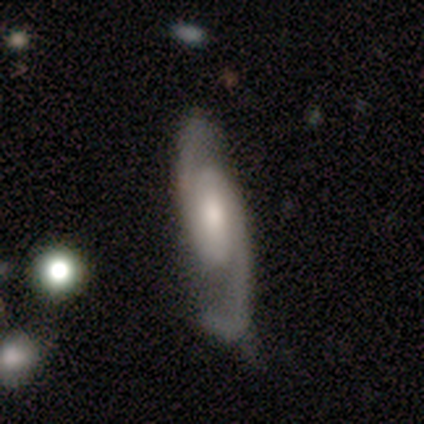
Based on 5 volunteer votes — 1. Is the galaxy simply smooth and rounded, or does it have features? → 80% featured or disk, 20% smooth, 0% star or artifact.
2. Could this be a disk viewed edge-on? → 100% no, 0% yes.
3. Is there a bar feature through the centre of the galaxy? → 50% weak, 25% strong, 25% no.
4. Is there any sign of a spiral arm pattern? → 100% yes, 0% no.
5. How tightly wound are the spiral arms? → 50% medium, 25% tight, 25% loose.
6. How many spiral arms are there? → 100% 2, 0% 1, 0% 3, 0% 4, 0% more than 4, 0% can't tell.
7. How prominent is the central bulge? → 75% moderate, 25% small, 0% dominant, 0% large, 0% none.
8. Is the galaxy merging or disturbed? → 60% none, 40% minor disturbance, 0% major disturbance, 0% merger.